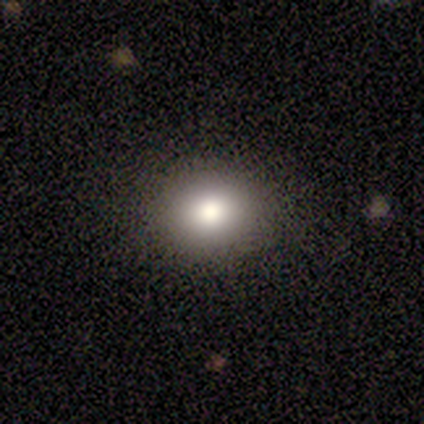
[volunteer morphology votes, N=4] Q: Smooth or featured?
A: smooth (75%); runner-up: star or artifact (25%)
Q: How rounded?
A: round (67%); runner-up: in between (33%)
Q: Merging?
A: none (100%)